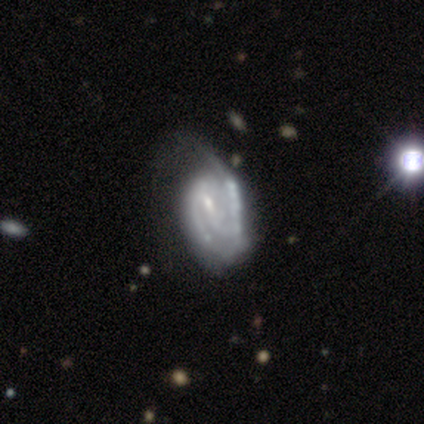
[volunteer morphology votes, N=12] type=featured or disk (83%); edge-on=no (100%); bar=no (60%); spiral arms=yes (90%); winding=tight (56%); arm count=2 (78%); bulge=small (50%); merging=minor disturbance (42%).